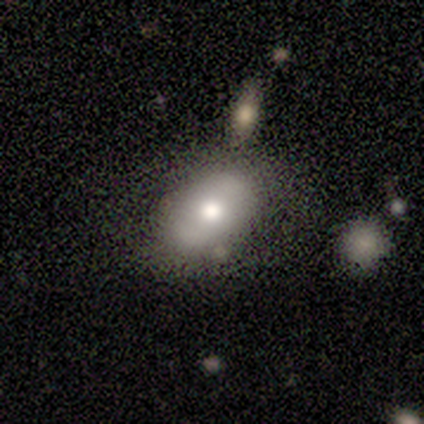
A featured or disk galaxy (60%) with no bar (100%), no spiral arms (67%) and a moderate central bulge (100%).

Vote fractions:
- Smooth or featured? featured or disk: 60% / smooth: 40% / star or artifact: 0%
- Edge-on disk? no: 100% / yes: 0%
- Bar? no: 100% / strong: 0% / weak: 0%
- Spiral arms? no: 67% / yes: 33%
- Bulge size? moderate: 100% / dominant: 0% / large: 0% / small: 0% / none: 0%
- Merging? none: 80% / minor disturbance: 20% / major disturbance: 0% / merger: 0%